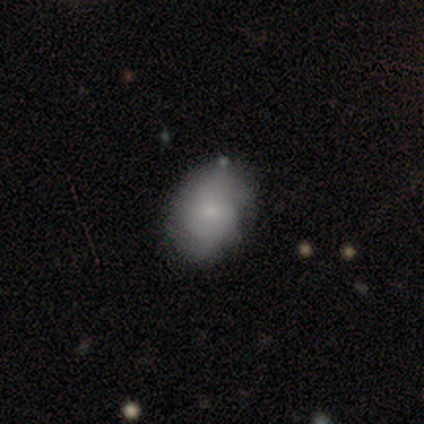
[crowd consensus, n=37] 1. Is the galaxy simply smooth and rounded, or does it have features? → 49% smooth, 41% featured or disk, 11% star or artifact.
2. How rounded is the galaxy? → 72% in between, 22% round, 6% cigar-shaped.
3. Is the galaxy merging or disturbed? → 67% none, 27% minor disturbance, 6% major disturbance, 0% merger.